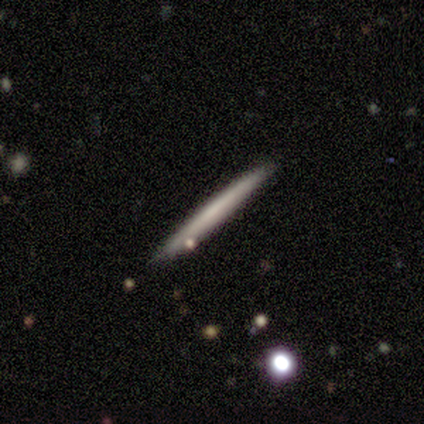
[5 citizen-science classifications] Q: Smooth or featured?
A: smooth (80%); runner-up: featured or disk (20%)
Q: How rounded?
A: cigar-shaped (100%)
Q: Merging?
A: none (100%)